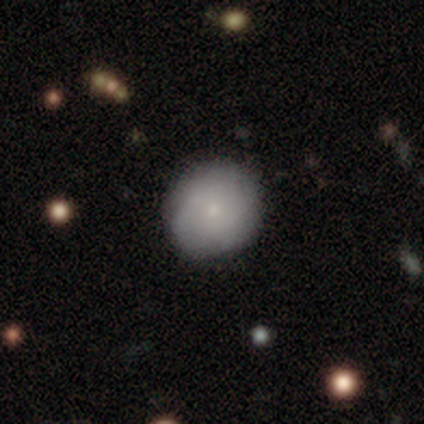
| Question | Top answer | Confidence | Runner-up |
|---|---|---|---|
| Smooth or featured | smooth | 67% | featured or disk (33%) |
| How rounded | round | 100% | — |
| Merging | none | 67% | minor disturbance (33%) |